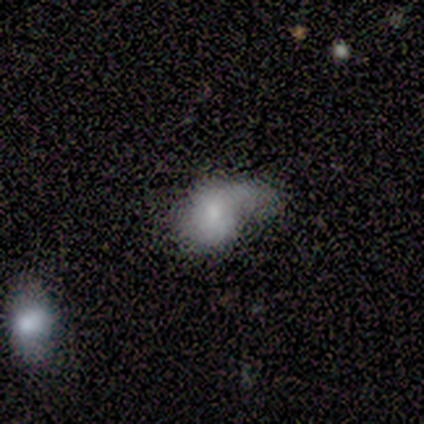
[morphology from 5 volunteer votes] Smooth or featured? 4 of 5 (80%) said featured or disk. Edge-on disk? 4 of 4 (100%) said no. Bar? 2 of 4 (50%, tied with no) said weak. Spiral arms? 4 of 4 (100%) said yes. Spiral winding? 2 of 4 (50%, tied with loose) said tight. Spiral arm count? 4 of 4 (100%) said 1. Bulge size? 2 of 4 (50%) said small. Merging? 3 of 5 (60%) said major disturbance.